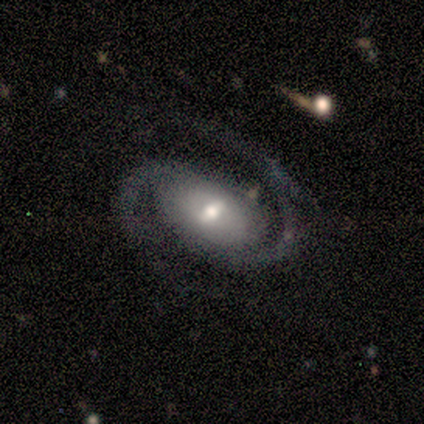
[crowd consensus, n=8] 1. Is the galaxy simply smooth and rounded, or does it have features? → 88% featured or disk, 12% star or artifact, 0% smooth.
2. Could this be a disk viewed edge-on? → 86% no, 14% yes.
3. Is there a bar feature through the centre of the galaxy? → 67% weak, 17% strong, 17% no.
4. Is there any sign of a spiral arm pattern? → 100% yes, 0% no.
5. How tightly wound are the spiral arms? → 67% medium, 17% tight, 17% loose.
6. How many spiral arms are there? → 100% 2, 0% 1, 0% 3, 0% 4, 0% more than 4, 0% can't tell.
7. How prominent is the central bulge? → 67% moderate, 33% small, 0% dominant, 0% large, 0% none.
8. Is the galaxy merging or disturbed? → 57% none, 14% minor disturbance, 14% major disturbance, 14% merger.